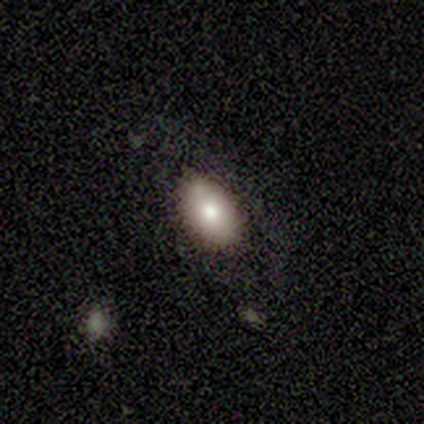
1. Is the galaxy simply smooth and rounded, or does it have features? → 80% smooth, 20% featured or disk, 0% star or artifact.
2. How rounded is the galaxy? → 100% in between, 0% round, 0% cigar-shaped.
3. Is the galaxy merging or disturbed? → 60% none, 20% major disturbance, 20% merger, 0% minor disturbance.